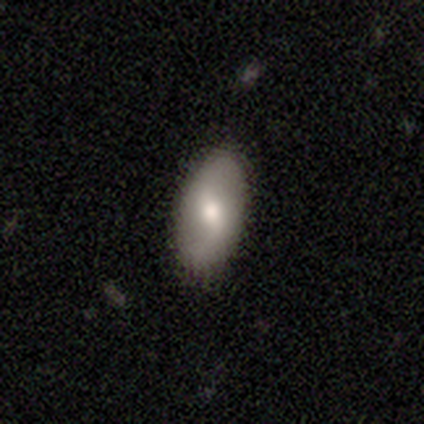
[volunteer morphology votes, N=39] Smooth or featured? smooth (59%)
How rounded? in between (91%)
Merging? none (87%)